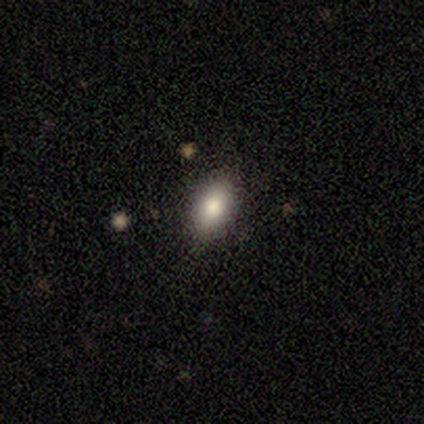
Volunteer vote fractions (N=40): Smooth or featured?
  - smooth: 80% *
  - featured or disk: 12%
  - star or artifact: 8%
How rounded?
  - in between: 97% *
  - cigar-shaped: 3%
  - round: 0%
Merging?
  - none: 86% *
  - minor disturbance: 5%
  - major disturbance: 5%
  - merger: 3%